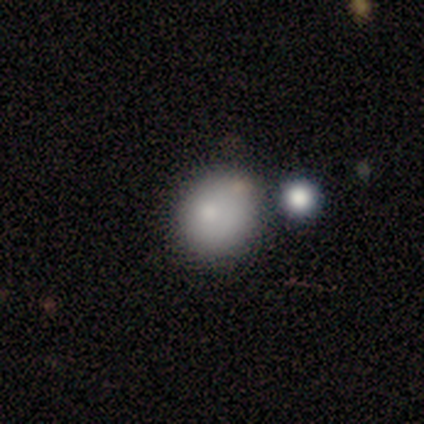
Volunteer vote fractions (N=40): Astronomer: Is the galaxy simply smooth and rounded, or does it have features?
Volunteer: smooth — 82%.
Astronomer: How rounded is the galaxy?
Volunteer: round — 79%.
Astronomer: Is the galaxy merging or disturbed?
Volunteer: none — 51%.